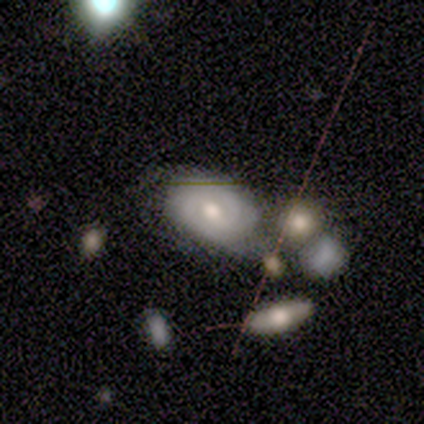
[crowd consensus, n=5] smooth_or_featured: smooth (p=0.60) [alt: featured or disk p=0.40]
how_rounded: in between (p=1.00)
merging: none (p=0.40) [tied with: merger p=0.40]